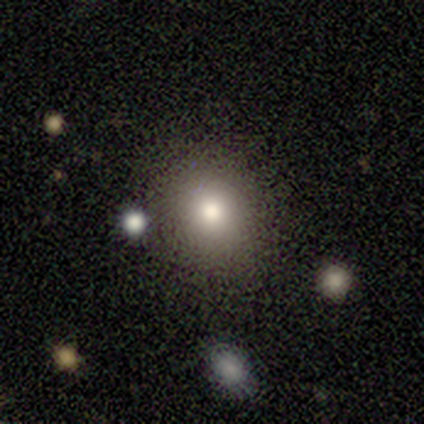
Smooth or featured: smooth — 88% (featured or disk — 12%)
How rounded: round — 100%
Merging: none — 88% (minor disturbance — 12%)